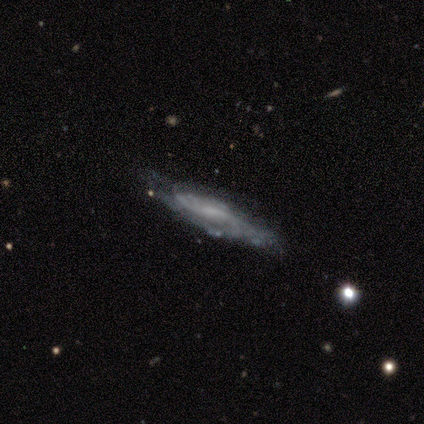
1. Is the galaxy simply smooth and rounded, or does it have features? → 80% featured or disk, 20% smooth, 0% star or artifact.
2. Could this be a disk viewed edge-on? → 75% no, 25% yes.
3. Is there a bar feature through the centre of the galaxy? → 67% no, 33% weak, 0% strong.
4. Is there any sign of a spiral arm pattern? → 100% yes, 0% no.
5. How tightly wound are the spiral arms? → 67% loose, 33% tight, 0% medium.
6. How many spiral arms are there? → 67% can't tell, 33% 2, 0% 1, 0% 3, 0% 4, 0% more than 4.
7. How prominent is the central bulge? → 100% small, 0% dominant, 0% large, 0% moderate, 0% none.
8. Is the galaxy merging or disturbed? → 100% none, 0% minor disturbance, 0% major disturbance, 0% merger.